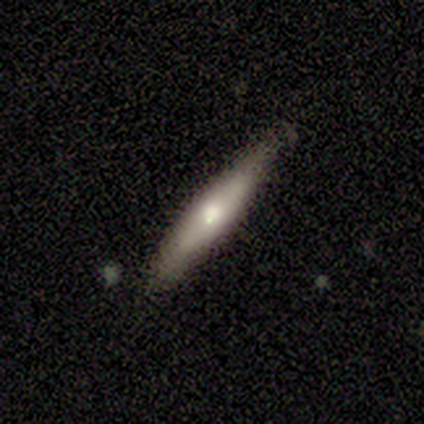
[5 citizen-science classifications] A smooth galaxy with no disk features (60%) that is cigar-shaped (100%). Merging: none (100%).